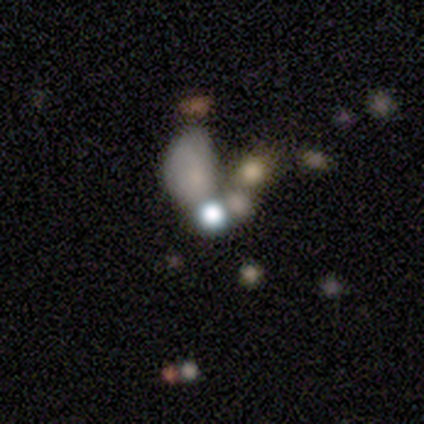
A smooth galaxy with no disk features (40%, tied with star or artifact) that is in between round and cigar-shaped (100%). Merging: merger (67%).